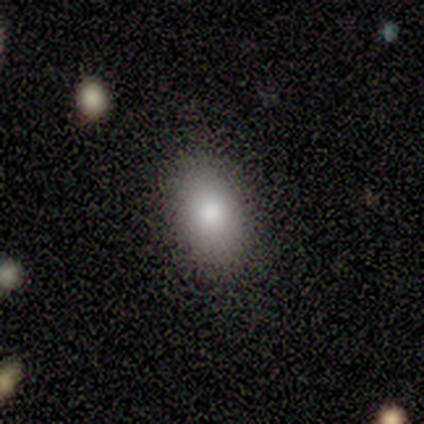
A smooth galaxy with no disk features (100%) that is in between round and cigar-shaped (80%).

Vote fractions:
- Smooth or featured? smooth: 100% / featured or disk: 0% / star or artifact: 0%
- How rounded? in between: 80% / round: 20% / cigar-shaped: 0%
- Merging? none: 80% / minor disturbance: 20% / major disturbance: 0% / merger: 0%